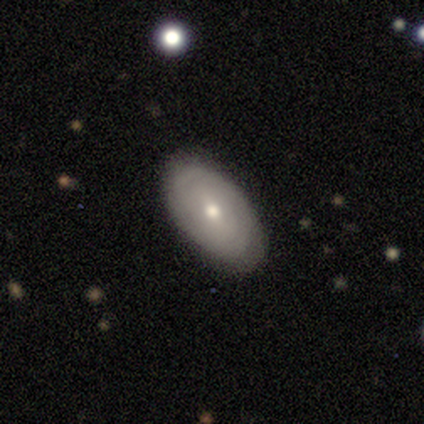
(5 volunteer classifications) smooth-or-featured: smooth: 60% | featured or disk: 20% | star or artifact: 20%
  how-rounded: in between: 67% | round: 33% | cigar-shaped: 0%
  merging: none: 100% | minor disturbance: 0% | major disturbance: 0% | merger: 0%